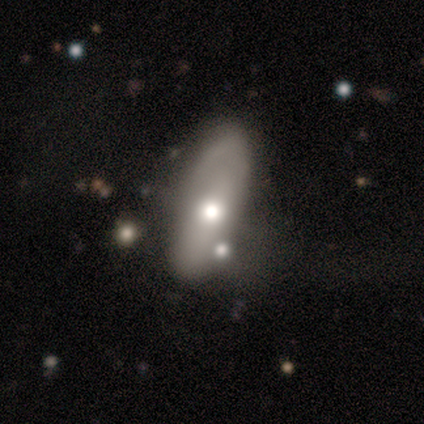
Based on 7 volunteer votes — smooth 57%, featured or disk 43%, star or artifact 0%. Down the decision tree: how rounded — in between (75%); merging — merger (57%).